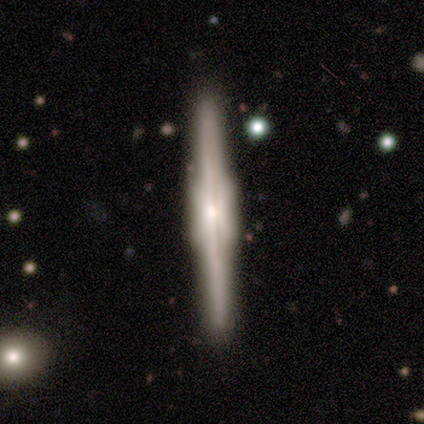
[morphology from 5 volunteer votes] Overall: featured or disk (80%). Edge-on disk: yes (100%). Edge-on bulge: boxy (75%). Merging: none (100%).